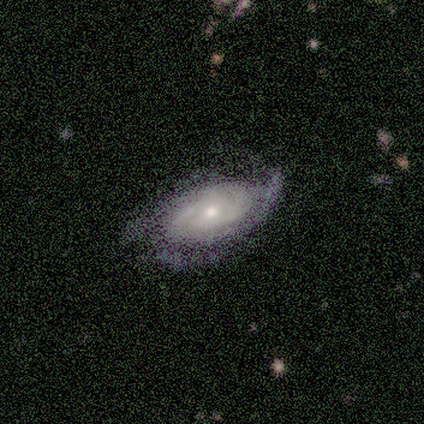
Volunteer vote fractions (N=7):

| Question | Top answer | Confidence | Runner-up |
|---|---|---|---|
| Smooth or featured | featured or disk | 86% | smooth (14%) |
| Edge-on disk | no | 100% | — |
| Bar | no | 83% | weak (17%) |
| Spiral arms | yes | 100% | — |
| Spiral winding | tight | 67% | medium (17%) |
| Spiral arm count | can't tell | 50% | 1 (17%) |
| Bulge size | small | 83% | moderate (17%) |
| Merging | none | 57% | minor disturbance (29%) |